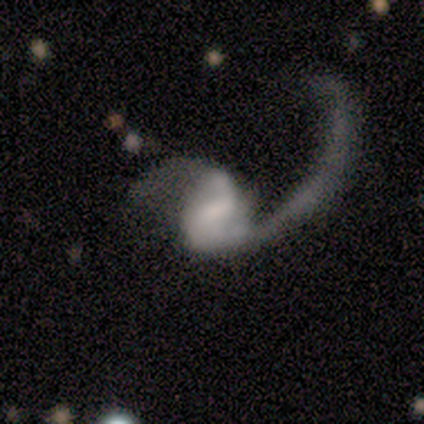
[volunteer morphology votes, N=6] This is clearly a featured or disk galaxy (100%). It is clearly not viewed edge-on (100%). Bar: likely no (67%). Spiral arm pattern: clearly yes (83%). Spiral arm count: clearly 2 (80%). Spiral winding: clearly loose (100%). Central bulge: clearly none (83%). Merging: likely major disturbance (67%).